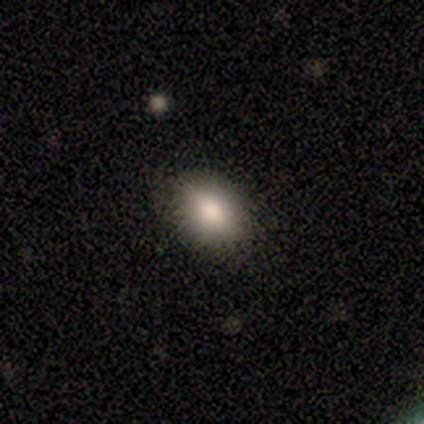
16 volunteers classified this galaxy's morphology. smooth-or-featured: smooth: 88% | featured or disk: 12% | star or artifact: 0%
  how-rounded: in between: 86% | round: 14% | cigar-shaped: 0%
  merging: none: 75% | minor disturbance: 19% | major disturbance: 6% | merger: 0%